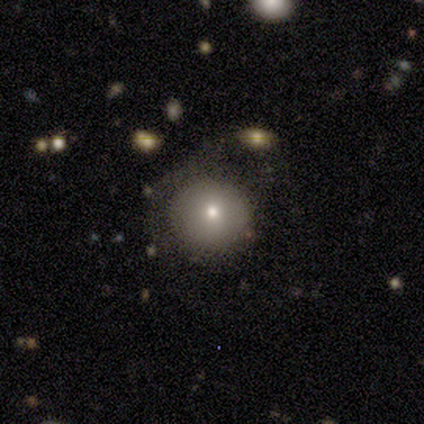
smooth 80%, star or artifact 20%, featured or disk 0%. Down the decision tree: how rounded — round (100%); merging — none (75%).